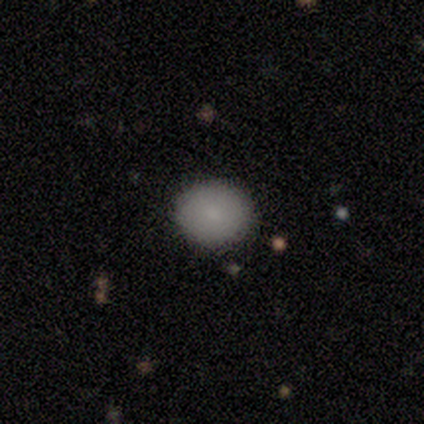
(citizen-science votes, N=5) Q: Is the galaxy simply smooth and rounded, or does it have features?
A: smooth — 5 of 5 (100%).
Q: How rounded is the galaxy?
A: round — 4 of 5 (80%).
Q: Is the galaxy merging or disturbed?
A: none — 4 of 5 (80%).